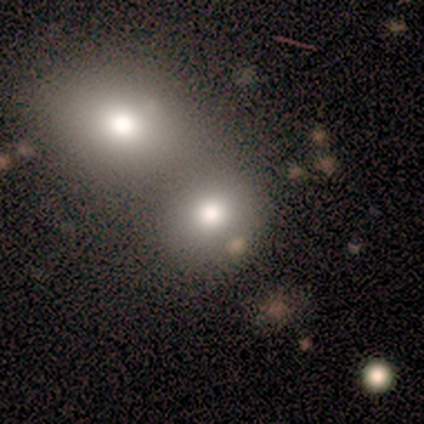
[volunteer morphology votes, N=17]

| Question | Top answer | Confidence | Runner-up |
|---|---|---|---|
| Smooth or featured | smooth | 65% | star or artifact (29%) |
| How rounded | round | 73% | in between (27%) |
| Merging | merger | 75% | minor disturbance (17%) |